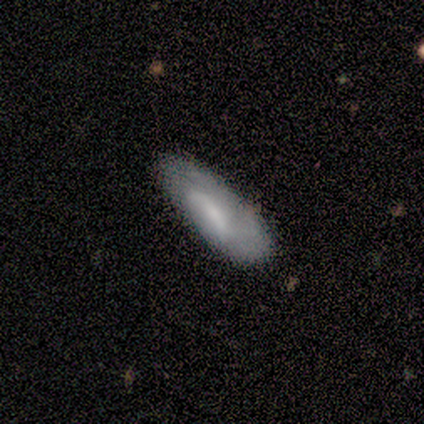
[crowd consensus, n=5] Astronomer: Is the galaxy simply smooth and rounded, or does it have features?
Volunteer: smooth — 60% (runner-up: featured or disk, 40%).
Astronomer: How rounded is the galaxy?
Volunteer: in between — 100%.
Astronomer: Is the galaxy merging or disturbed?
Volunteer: minor disturbance — 60% (runner-up: none, 40%).